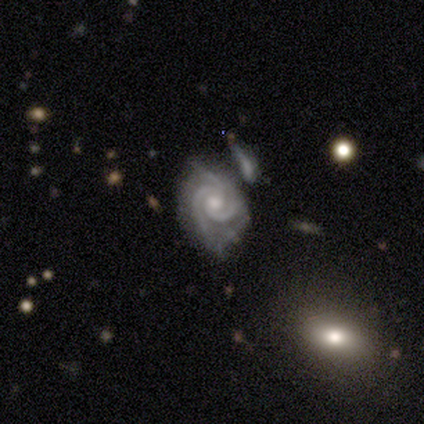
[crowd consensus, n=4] Smooth or featured? featured or disk (100%)
Edge-on disk? no (100%)
Bar? no (75%)
Spiral arms? yes (100%)
Spiral winding? tight (100%)
Spiral arm count? 2 (75%)
Bulge size? moderate (50%, tied with small)
Merging? minor disturbance (75%)